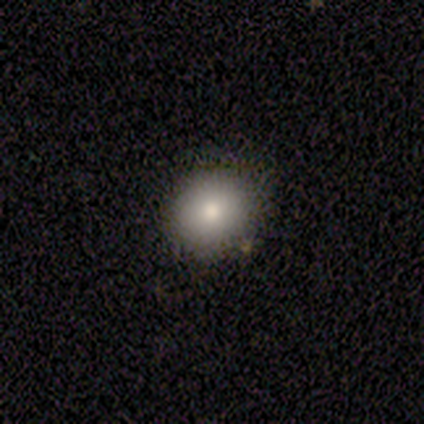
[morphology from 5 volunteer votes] This is clearly a smooth galaxy (100%). How rounded: likely round (60%). Merging: clearly none (80%).